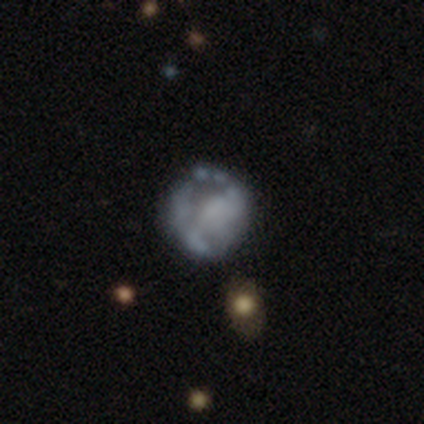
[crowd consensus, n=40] This appears to be a featured or disk galaxy (68%) with no bar (78%), no spiral arms (59%) and no central bulge (56%). Merging: none (32%).